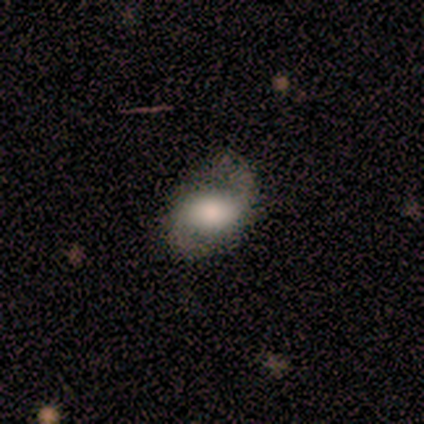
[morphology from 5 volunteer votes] Q: Smooth or featured?
A: featured or disk (60%); runner-up: smooth (40%)
Q: Edge-on disk?
A: no (100%)
Q: Bar?
A: weak (100%)
Q: Spiral arms?
A: yes (100%)
Q: Spiral winding?
A: tight (33%); tied with: medium (33%); loose (33%)
Q: Spiral arm count?
A: 2 (100%)
Q: Bulge size?
A: moderate (67%); runner-up: large (33%)
Q: Merging?
A: none (80%); runner-up: minor disturbance (20%)